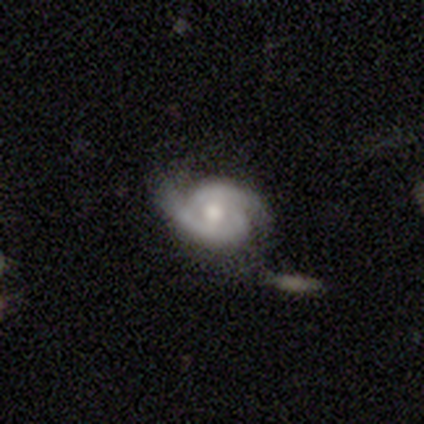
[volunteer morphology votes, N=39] smooth_or_featured: featured or disk (p=0.82) [alt: smooth p=0.13]
disk_edge_on: no (p=1.00)
bar: no (p=0.84) [alt: weak p=0.16]
has_spiral_arms: yes (p=1.00)
spiral_winding: tight (p=0.50) [alt: medium p=0.38]
spiral_arm_count: 2 (p=1.00)
bulge_size: moderate (p=0.78) [alt: large p=0.16]
merging: none (p=0.62) [alt: minor disturbance p=0.16]